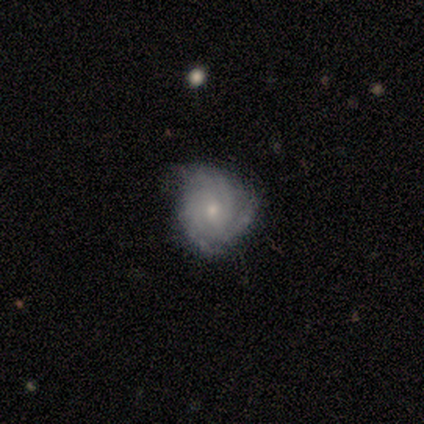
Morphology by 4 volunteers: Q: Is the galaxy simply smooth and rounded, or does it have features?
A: featured or disk — 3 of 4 (75%).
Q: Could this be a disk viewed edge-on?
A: no — 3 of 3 (100%).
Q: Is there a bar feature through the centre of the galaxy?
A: no — 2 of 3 (67%).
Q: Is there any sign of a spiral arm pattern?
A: yes — 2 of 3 (67%).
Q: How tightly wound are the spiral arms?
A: tight — 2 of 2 (100%).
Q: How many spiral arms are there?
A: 3 — 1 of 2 (50%, tied with can't tell).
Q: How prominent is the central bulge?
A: small — 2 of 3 (67%).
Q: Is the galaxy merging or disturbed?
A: none — 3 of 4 (75%).